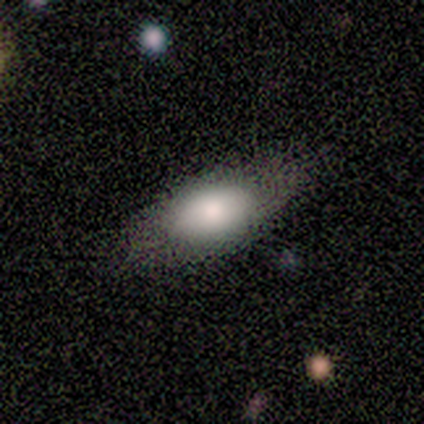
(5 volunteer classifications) Volunteers were most divided on "merging": none: 80%, merger: 20%, minor disturbance: 0%, major disturbance: 0%. More confident: smooth or featured — smooth (100%); how rounded — in between (100%).